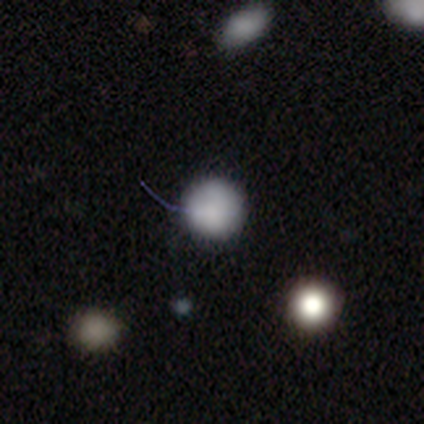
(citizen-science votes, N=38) Smooth or featured? smooth (87%)
How rounded? round (100%)
Merging? none (82%)